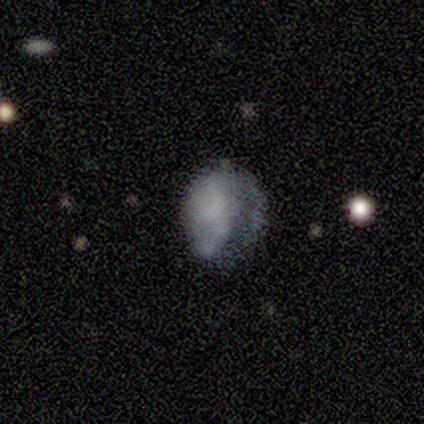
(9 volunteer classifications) Q: Smooth or featured?
A: smooth (44%); runner-up: featured or disk (33%)
Q: How rounded?
A: round (50%); tied with: in between (50%)
Q: Merging?
A: major disturbance (86%); runner-up: minor disturbance (14%)